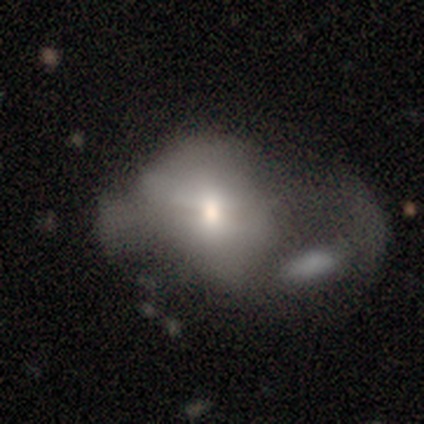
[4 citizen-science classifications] featured or disk 50% (tied), star or artifact 50% (tied), smooth 0%. Down the decision tree: edge-on disk — no (100%); bar — no (100%); spiral arms — yes (50%, tied with no); spiral arm count — 1 (100%); spiral winding — medium (100%); bulge size — moderate (50%, tied with small); merging — none (50%, tied with major disturbance).